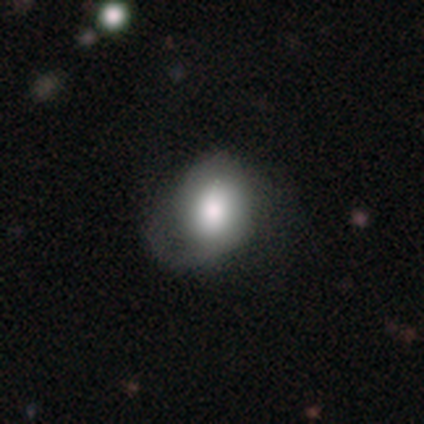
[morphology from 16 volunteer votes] Q: Smooth or featured?
A: smooth (75%); runner-up: featured or disk (19%)
Q: How rounded?
A: in between (67%); runner-up: round (33%)
Q: Merging?
A: major disturbance (47%); runner-up: none (27%)